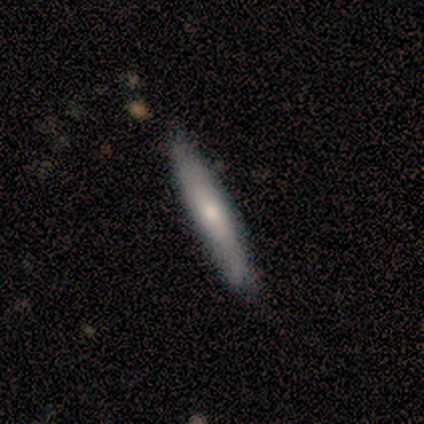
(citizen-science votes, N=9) Smooth or featured?
  - smooth: 56% *
  - featured or disk: 44%
  - star or artifact: 0%
How rounded?
  - cigar-shaped: 100% *
  - round: 0%
  - in between: 0%
Merging?
  - none: 89% *
  - minor disturbance: 11%
  - major disturbance: 0%
  - merger: 0%